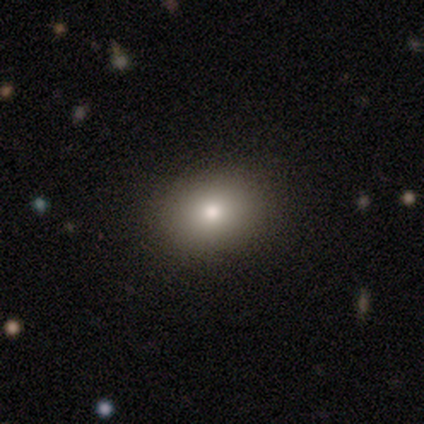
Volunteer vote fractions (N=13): Q: Smooth or featured?
A: smooth (54%); runner-up: featured or disk (23%)
Q: How rounded?
A: in between (86%); runner-up: round (14%)
Q: Merging?
A: none (100%)